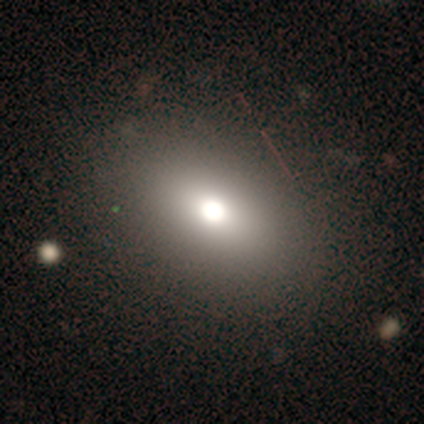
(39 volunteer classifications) A smooth galaxy with no disk features (90%) that is in between round and cigar-shaped (69%). Merging: none (86%).